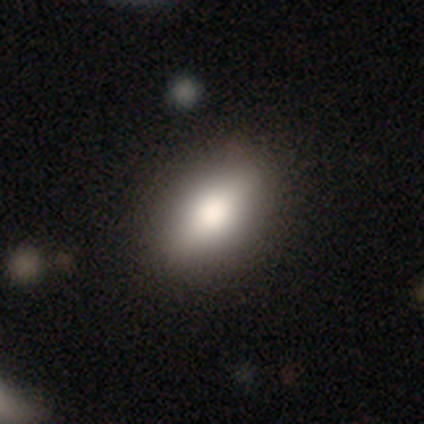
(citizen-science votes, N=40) Q: Smooth or featured?
A: smooth (75%); runner-up: featured or disk (12%)
Q: How rounded?
A: in between (93%); runner-up: round (3%)
Q: Merging?
A: none (89%); runner-up: minor disturbance (6%)